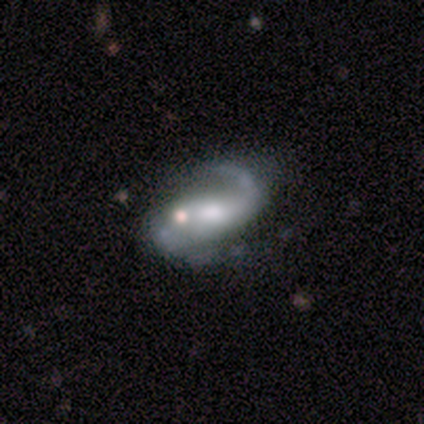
featured or disk 86%, smooth 11%, star or artifact 3%. Down the decision tree: edge-on disk — no (90%); bar — weak (46%); spiral arms — yes (86%); spiral arm count — 2 (79%); spiral winding — loose (62%); bulge size — moderate (61%); merging — major disturbance (34%).